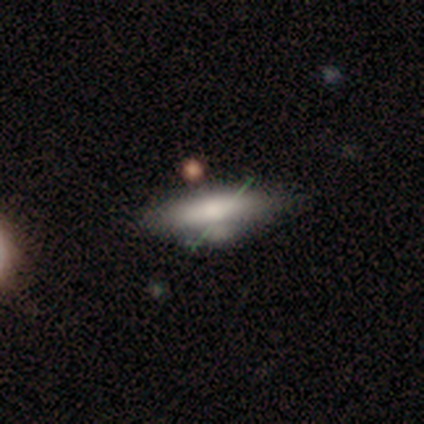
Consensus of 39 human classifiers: Smooth or featured? 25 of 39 (64%) said smooth. How rounded? 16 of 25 (64%) said in between. Merging? 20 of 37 (54%) said none.